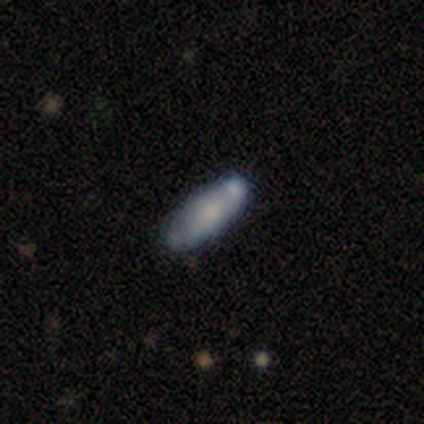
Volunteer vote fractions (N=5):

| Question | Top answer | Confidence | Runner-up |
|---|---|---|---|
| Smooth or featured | smooth | 80% | star or artifact (20%) |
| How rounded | in between | 100% | — |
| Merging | minor disturbance | 75% | none (25%) |